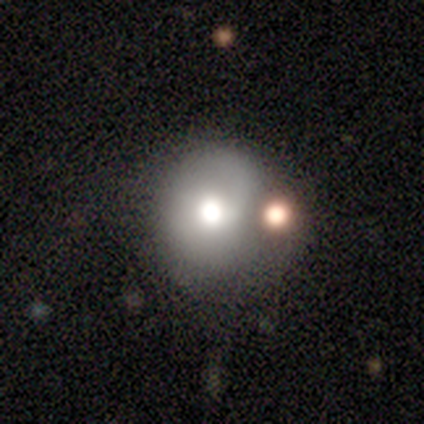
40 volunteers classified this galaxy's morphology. This is likely a smooth galaxy (70%). How rounded: clearly round (82%). Merging: possibly none (46%).